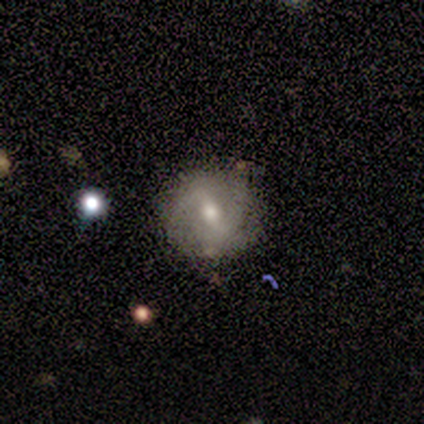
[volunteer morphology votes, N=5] This is clearly a featured or disk galaxy (80%). It is clearly not viewed edge-on (100%). Bar: likely strong (75%). Spiral arm pattern: possibly yes (50%, tied with no). Spiral arm count: clearly 2 (100%). Spiral winding: clearly medium (100%). Central bulge: likely moderate (75%). Merging: clearly none (80%).